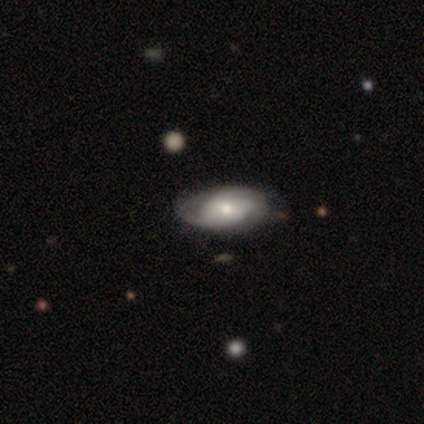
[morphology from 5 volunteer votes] Smooth or featured? featured or disk (60%)
Edge-on disk? no (67%)
Bar? no (100%)
Spiral arms? yes (100%)
Spiral winding? tight (50%, tied with medium)
Spiral arm count? 3 (50%, tied with can't tell)
Bulge size? moderate (50%, tied with small)
Merging? none (80%)